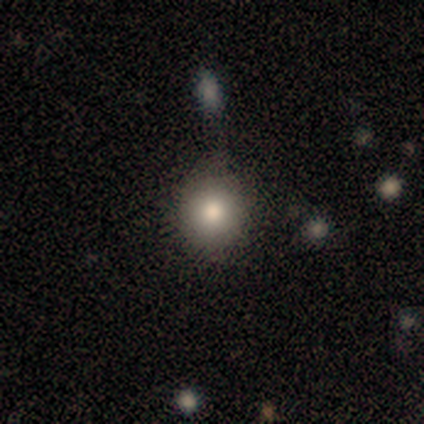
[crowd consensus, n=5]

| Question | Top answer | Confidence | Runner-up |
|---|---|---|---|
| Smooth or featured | smooth | 100% | — |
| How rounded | round | 80% | in between (20%) |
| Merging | none | 60% | minor disturbance (20%) |